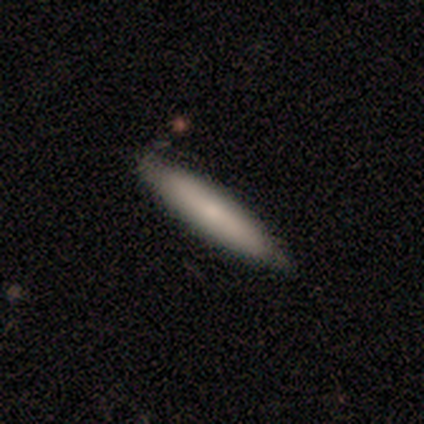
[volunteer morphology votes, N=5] Overall: smooth (80%). How rounded: cigar-shaped (100%). Merging: none (60%; minor disturbance 40%).